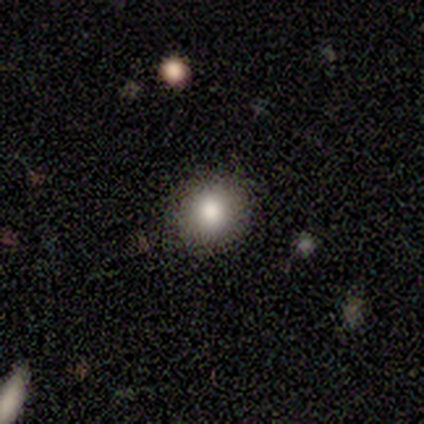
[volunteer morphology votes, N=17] smooth_or_featured: smooth (p=0.71) [alt: star or artifact p=0.18]
how_rounded: round (p=0.83) [alt: in between p=0.17]
merging: none (p=0.86) [alt: minor disturbance p=0.14]